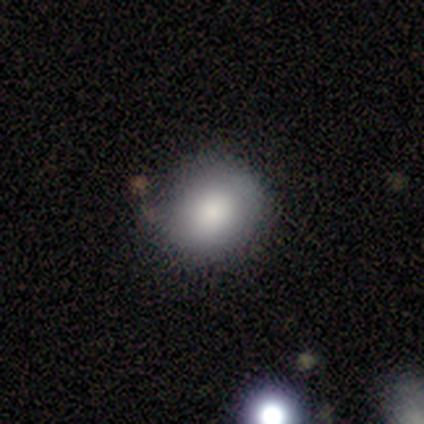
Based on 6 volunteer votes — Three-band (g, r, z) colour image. It shows a smooth galaxy with no disk features (100%) that is round (50%, tied with in between). Merging: none (83%).